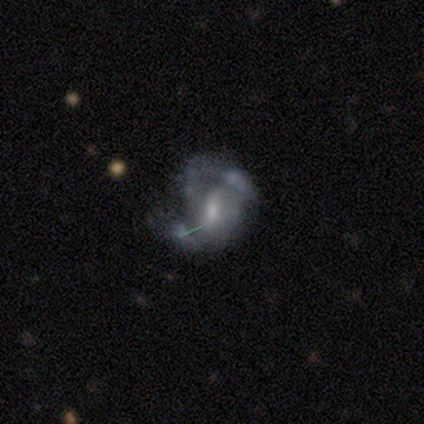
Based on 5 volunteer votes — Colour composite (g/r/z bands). It shows a featured or disk galaxy (100%) with a weak bar (60%), 1 (33%, tied with 2 and can't tell) loose (67%) spiral arms (60%) and a small central bulge (60%). Merging: major disturbance (60%).